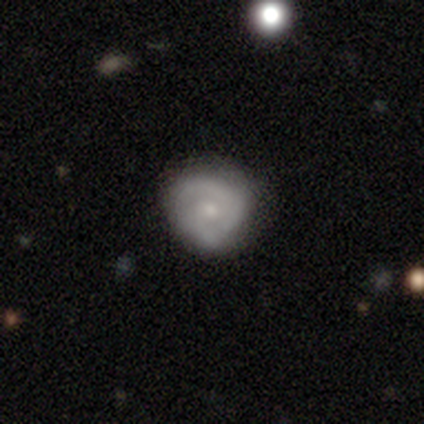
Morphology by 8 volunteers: A featured or disk galaxy (75%) with no bar (67%), 2 (75%) tight (100%) spiral arms (67%) and a small central bulge (67%). Merging: none (88%).